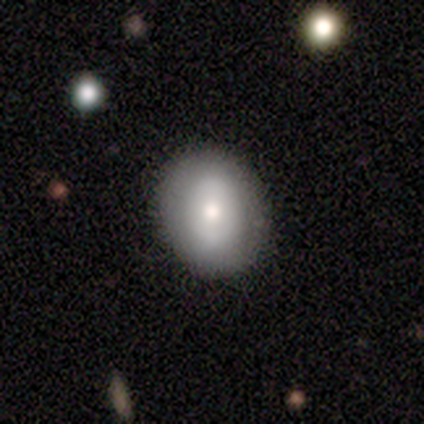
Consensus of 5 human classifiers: This is likely a featured or disk galaxy (60%). It is clearly not viewed edge-on (100%). Bar: likely no (67%). Spiral arm pattern: likely yes (67%). Spiral arm count: clearly can't tell (100%). Spiral winding: possibly tight (50%, tied with medium). Central bulge: likely moderate (67%). Merging: clearly none (80%).